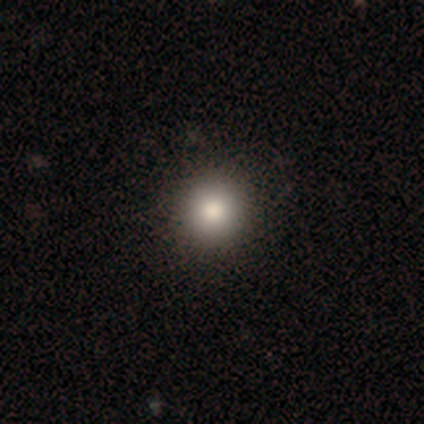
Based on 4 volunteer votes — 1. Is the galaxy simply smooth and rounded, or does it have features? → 75% smooth, 25% featured or disk, 0% star or artifact.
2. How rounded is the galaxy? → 100% round, 0% in between, 0% cigar-shaped.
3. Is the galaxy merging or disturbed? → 75% none, 25% major disturbance, 0% minor disturbance, 0% merger.